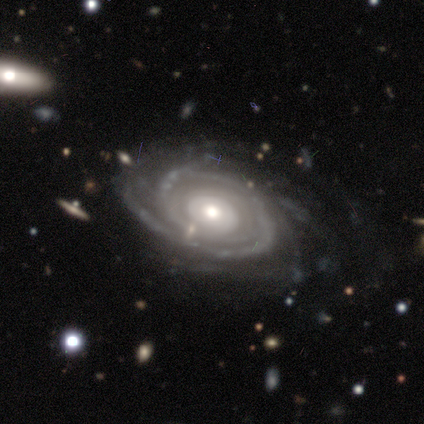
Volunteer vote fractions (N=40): Morphology: type=featured or disk (98%); edge-on=no (97%); bar=no (71%); spiral arms=yes (97%); winding=tight (65%); arm count=can't tell (30%); bulge=moderate (68%); merging=none (72%).